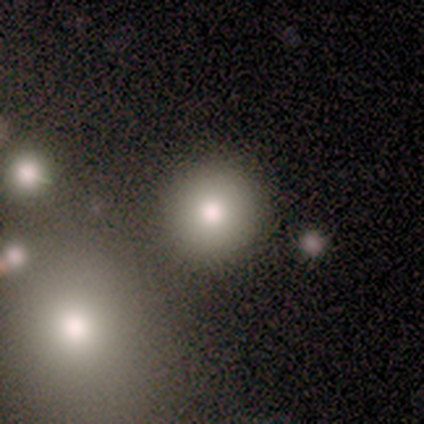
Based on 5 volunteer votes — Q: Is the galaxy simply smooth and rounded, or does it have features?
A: smooth — 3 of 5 (60%).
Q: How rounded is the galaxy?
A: round — 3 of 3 (100%).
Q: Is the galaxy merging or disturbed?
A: none — 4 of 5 (80%).